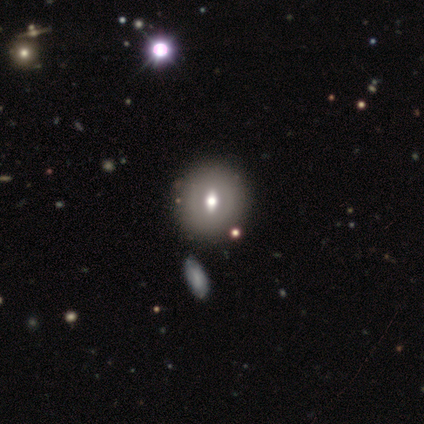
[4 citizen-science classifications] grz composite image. It shows a featured or disk galaxy (100%) with a strong bar (50%, tied with no), no spiral arms (100%) and a moderate central bulge (75%). Merging: none (100%).